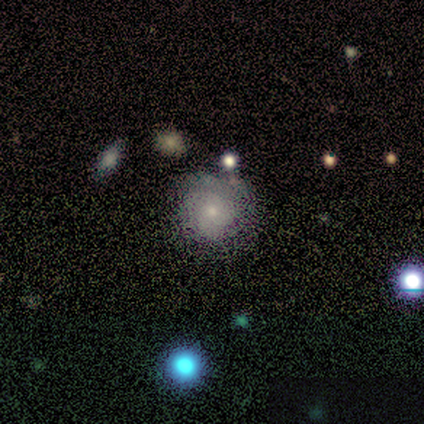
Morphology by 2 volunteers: type=smooth (100%); roundness=round (100%); merging=none (50%, tied with merger).